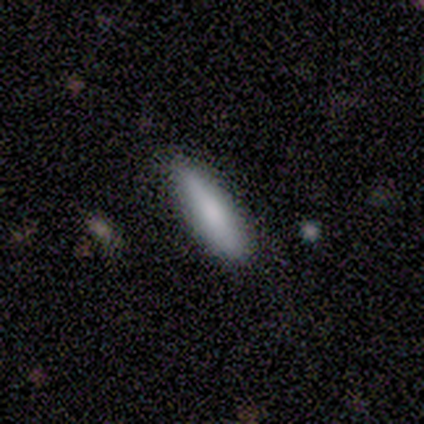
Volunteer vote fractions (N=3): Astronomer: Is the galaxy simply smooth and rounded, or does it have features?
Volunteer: smooth — 100%.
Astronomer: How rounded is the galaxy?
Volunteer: cigar-shaped — 100%.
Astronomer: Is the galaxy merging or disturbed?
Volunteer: none — 67%.